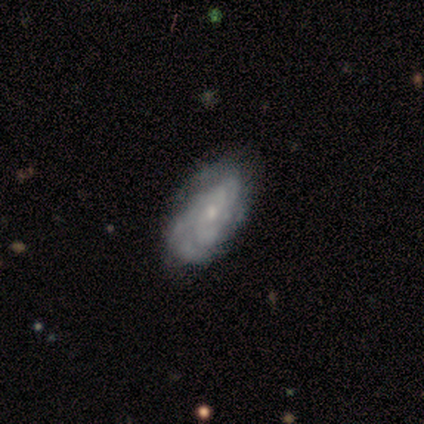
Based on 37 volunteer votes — Smooth or featured? featured or disk (84%)
Edge-on disk? no (100%)
Bar? no (84%)
Spiral arms? yes (77%)
Spiral winding? tight (71%)
Spiral arm count? can't tell (50%)
Bulge size? small (74%)
Merging? none (50%)